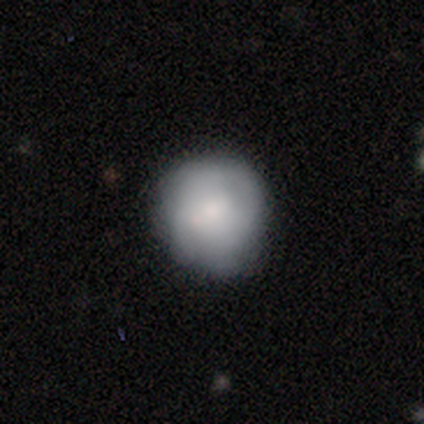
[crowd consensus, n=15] smooth_or_featured: smooth (p=0.73) [alt: featured or disk p=0.20]
how_rounded: round (p=1.00)
merging: none (p=0.93) [alt: minor disturbance p=0.07]